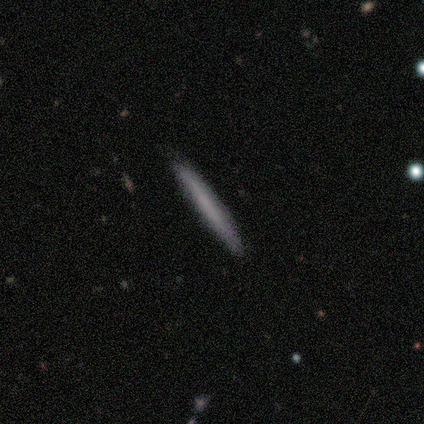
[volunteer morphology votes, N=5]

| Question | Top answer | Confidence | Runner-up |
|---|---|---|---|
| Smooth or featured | smooth | 60% | featured or disk (40%) |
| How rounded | cigar-shaped | 100% | — |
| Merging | none | 100% | — |